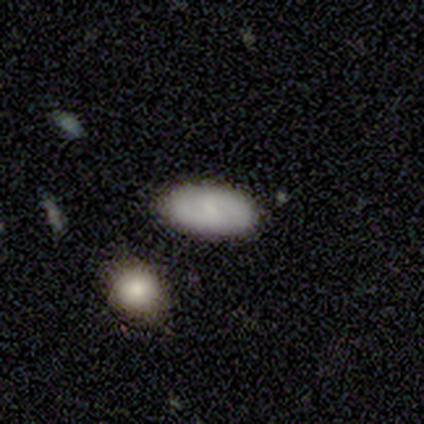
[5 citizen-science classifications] Smooth or featured? 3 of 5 (60%) said smooth. How rounded? 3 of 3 (100%) said in between. Merging? 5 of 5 (100%) said none.